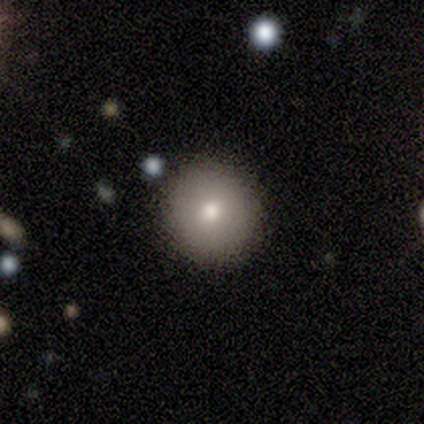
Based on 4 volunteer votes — A smooth galaxy with no disk features (100%) that is round (100%).

Vote fractions:
- Smooth or featured? smooth: 100% / featured or disk: 0% / star or artifact: 0%
- How rounded? round: 100% / in between: 0% / cigar-shaped: 0%
- Merging? none: 100% / minor disturbance: 0% / major disturbance: 0% / merger: 0%